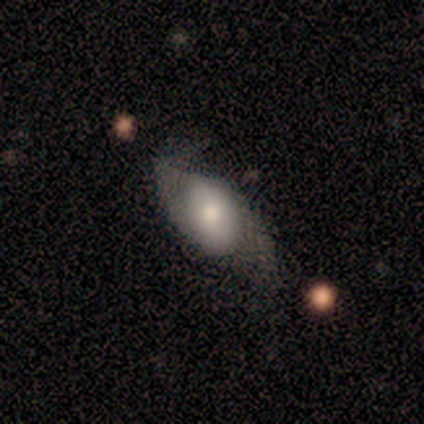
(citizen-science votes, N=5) Smooth or featured?
  - smooth: 80% *
  - featured or disk: 20%
  - star or artifact: 0%
How rounded?
  - in between: 100% *
  - round: 0%
  - cigar-shaped: 0%
Merging?
  - none: 40% * (tied)
  - minor disturbance: 40% * (tied)
  - major disturbance: 20%
  - merger: 0%